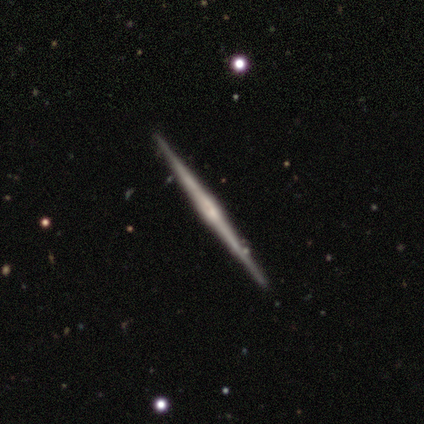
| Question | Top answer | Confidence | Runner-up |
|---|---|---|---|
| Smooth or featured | featured or disk | 86% | smooth (11%) |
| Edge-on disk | yes | 100% | — |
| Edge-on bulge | rounded | 48% | none (30%) |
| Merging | none | 94% | minor disturbance (4%) |